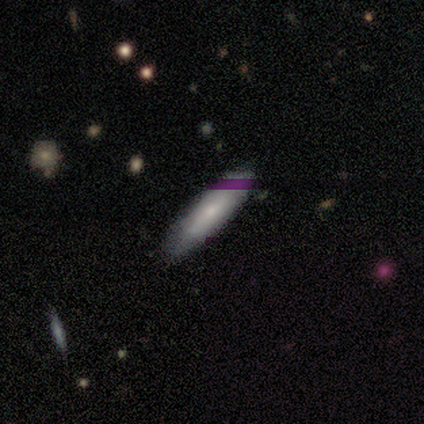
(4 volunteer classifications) Smooth or featured? 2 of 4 (50%, tied with featured or disk) said smooth. How rounded? 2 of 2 (100%) said cigar-shaped. Merging? 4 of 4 (100%) said none.